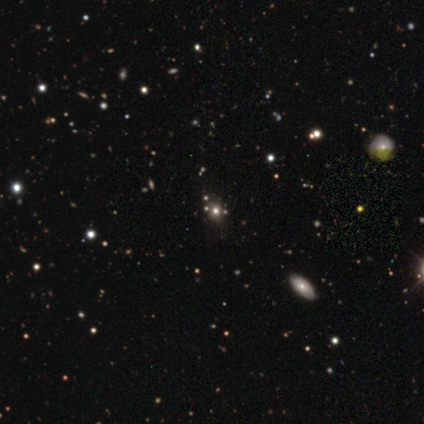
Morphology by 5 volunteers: smooth-or-featured: star or artifact: 60% | featured or disk: 40% | smooth: 0%